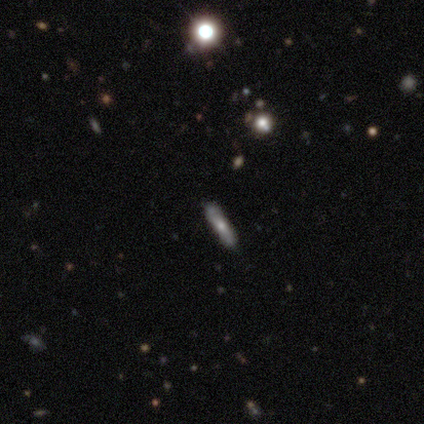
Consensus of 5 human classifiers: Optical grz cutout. It shows a smooth galaxy with no disk features (80%) that is cigar-shaped (100%). Merging: none (100%).